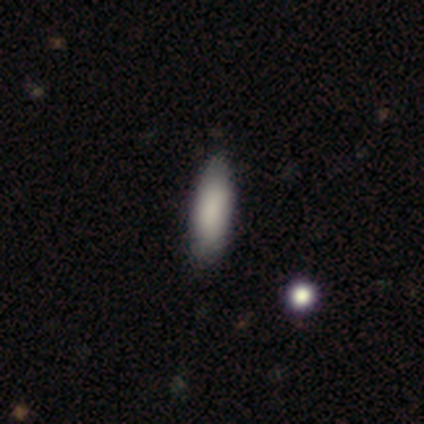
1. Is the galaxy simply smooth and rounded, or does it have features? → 60% smooth, 40% featured or disk, 0% star or artifact.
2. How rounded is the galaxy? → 67% in between, 33% cigar-shaped, 0% round.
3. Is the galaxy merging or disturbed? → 100% none, 0% minor disturbance, 0% major disturbance, 0% merger.